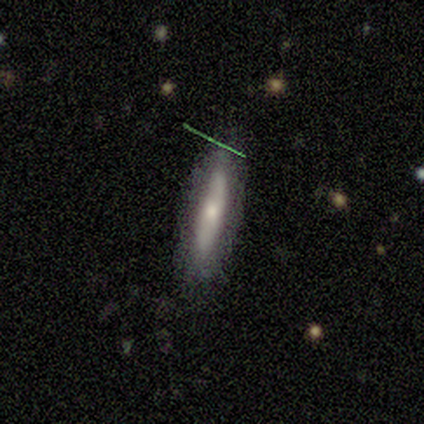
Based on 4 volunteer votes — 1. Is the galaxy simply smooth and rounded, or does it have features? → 75% smooth, 25% featured or disk, 0% star or artifact.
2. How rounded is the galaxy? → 67% cigar-shaped, 33% in between, 0% round.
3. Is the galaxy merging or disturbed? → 100% none, 0% minor disturbance, 0% major disturbance, 0% merger.